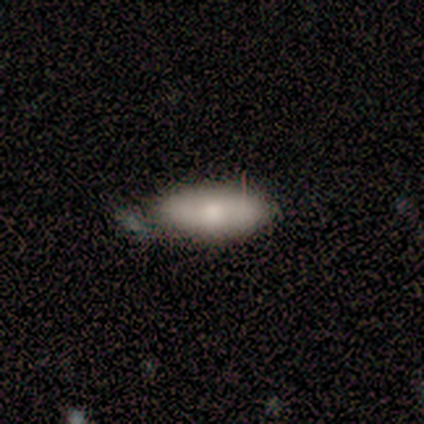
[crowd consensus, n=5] This is likely a smooth galaxy (60%). How rounded: clearly in between (100%). Merging: marginally none (25%, tied with minor disturbance, major disturbance and merger).